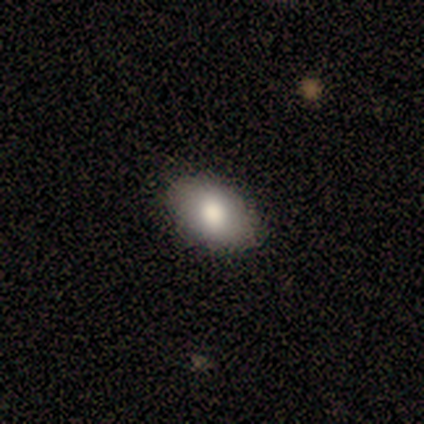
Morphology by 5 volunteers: This is clearly a smooth galaxy (100%). How rounded: clearly in between (80%). Merging: clearly none (80%).